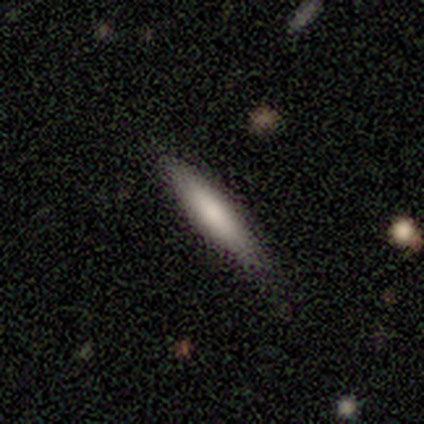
Smooth or featured? smooth (62%)
How rounded? cigar-shaped (100%)
Merging? none (88%)